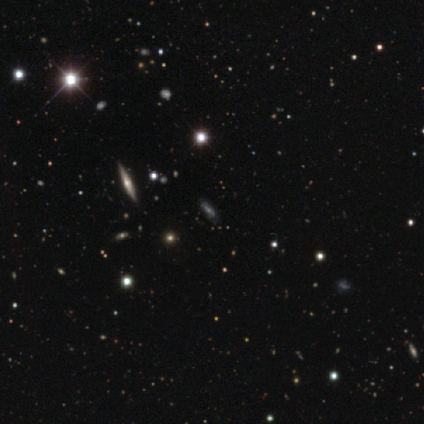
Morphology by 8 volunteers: This is likely a star or artifact rather than a galaxy (75%).